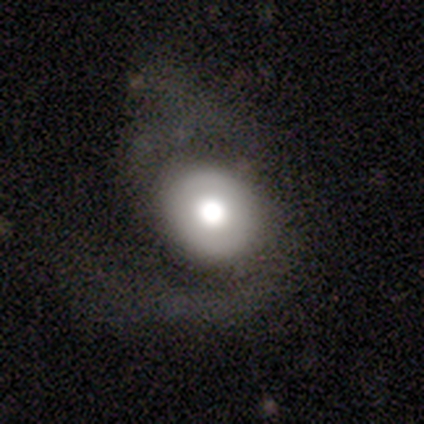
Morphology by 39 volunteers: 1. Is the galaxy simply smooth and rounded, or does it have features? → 54% smooth, 44% featured or disk, 3% star or artifact.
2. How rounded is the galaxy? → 81% round, 19% in between, 0% cigar-shaped.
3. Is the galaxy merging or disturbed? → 39% major disturbance, 32% none, 5% minor disturbance, 0% merger.